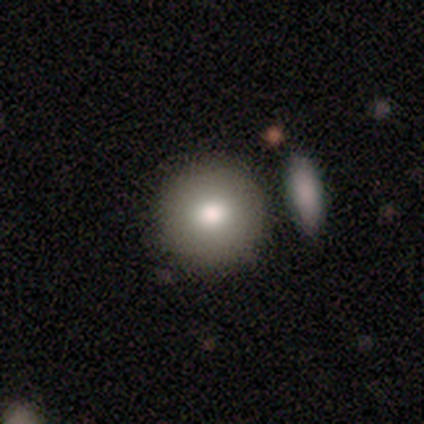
This is clearly a smooth galaxy (86%). How rounded: clearly round (83%). Merging: clearly none (86%).